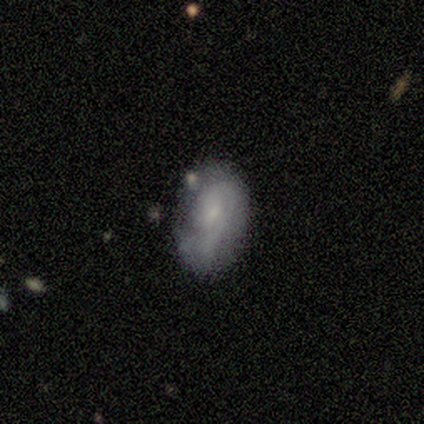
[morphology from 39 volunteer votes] smooth_or_featured: featured or disk (p=0.62) [alt: smooth p=0.33]
disk_edge_on: no (p=1.00)
bar: no (p=0.75) [alt: weak p=0.21]
has_spiral_arms: yes (p=0.79) [alt: no p=0.21]
spiral_winding: tight (p=0.63) [alt: medium p=0.21]
spiral_arm_count: 1 (p=0.47) [alt: 2 p=0.26]
bulge_size: small (p=0.75) [alt: none p=0.12]
merging: none (p=0.59) [alt: minor disturbance p=0.24]